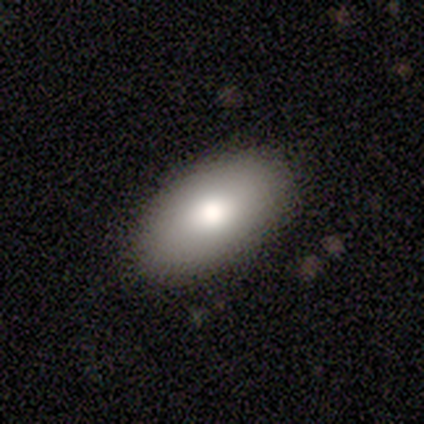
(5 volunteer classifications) This is clearly a smooth galaxy (80%). How rounded: clearly in between (100%). Merging: clearly none (80%).